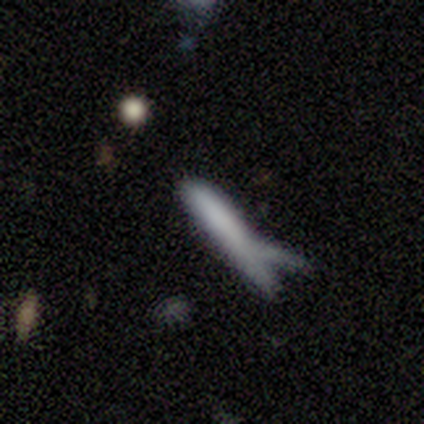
This appears to be a featured or disk galaxy (60%) viewed edge-on (100%) with no central bulge (67%). Merging: none (50%).